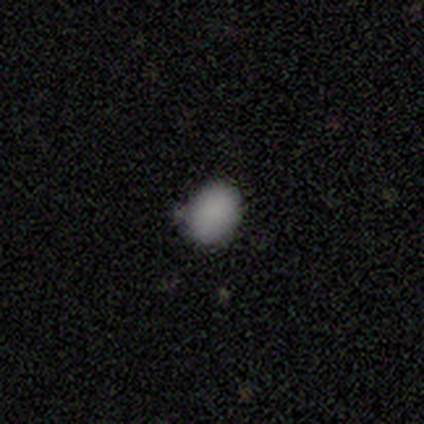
This appears to be a smooth galaxy with no disk features (85%) that is in between round and cigar-shaped (73%). Merging: none (73%).